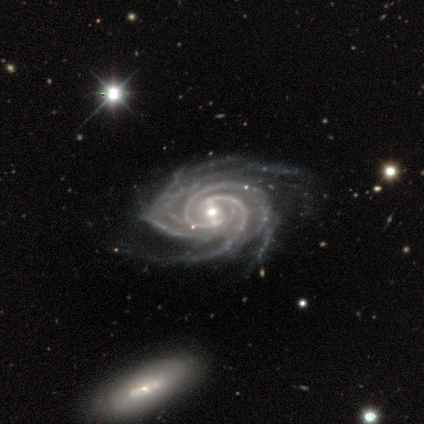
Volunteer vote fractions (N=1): smooth-or-featured: featured or disk: 100% | smooth: 0% | star or artifact: 0%
  disk-edge-on: no: 100% | yes: 0%
    bar: weak: 100% | strong: 0% | no: 0%
    has-spiral-arms: yes: 100% | no: 0%
      spiral-winding: tight: 100% | medium: 0% | loose: 0%
      spiral-arm-count: more than 4: 100% | 1: 0% | 2: 0% | 3: 0% | 4: 0% | can't tell: 0%
    bulge-size: small: 100% | dominant: 0% | large: 0% | moderate: 0% | none: 0%
  merging: minor disturbance: 100% | none: 0% | major disturbance: 0% | merger: 0%